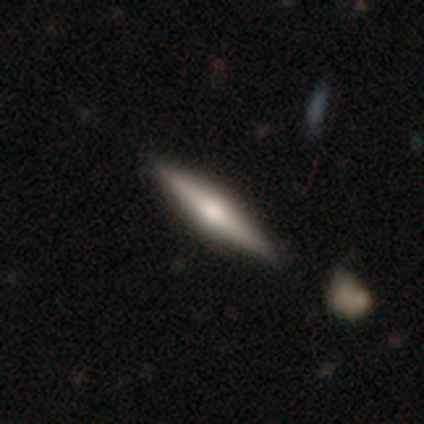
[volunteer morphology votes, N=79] This is likely a featured or disk galaxy (67%). It is clearly viewed edge-on (98%). Edge-on bulge: clearly rounded (87%). Merging: marginally none (38%).